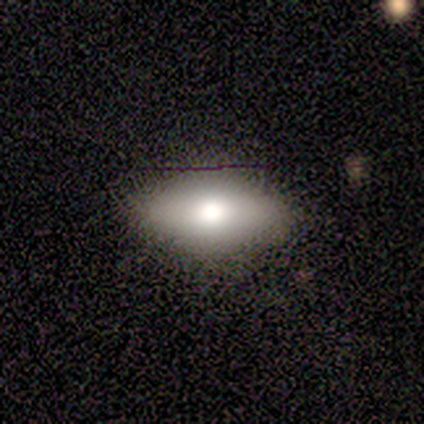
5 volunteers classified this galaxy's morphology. This is likely a smooth galaxy (60%). How rounded: clearly in between (100%). Merging: likely none (75%).